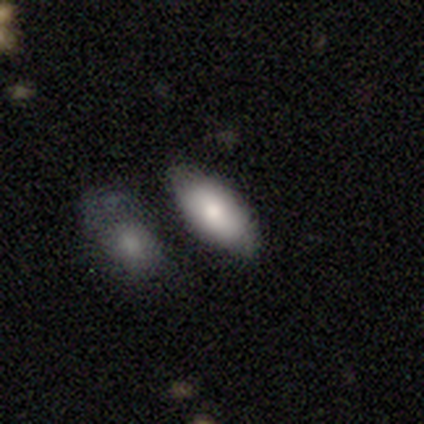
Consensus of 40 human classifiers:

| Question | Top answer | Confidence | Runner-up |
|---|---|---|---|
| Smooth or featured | smooth | 88% | featured or disk (10%) |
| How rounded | in between | 91% | cigar-shaped (9%) |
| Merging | none | 62% | minor disturbance (15%) |